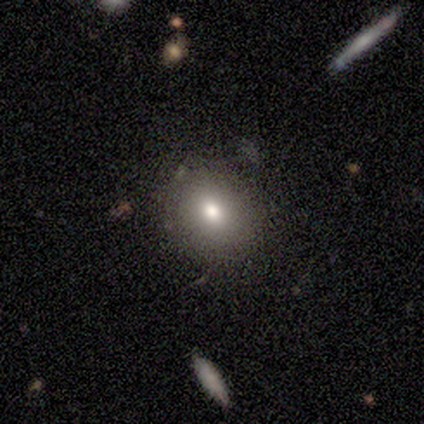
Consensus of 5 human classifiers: Q: Smooth or featured?
A: smooth (100%)
Q: How rounded?
A: round (80%); runner-up: in between (20%)
Q: Merging?
A: none (60%); runner-up: minor disturbance (40%)